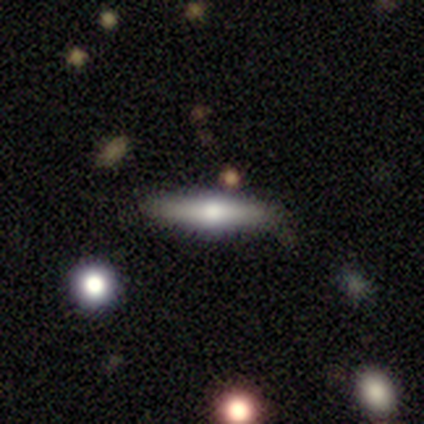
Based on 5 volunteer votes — A smooth galaxy with no disk features (100%) that is cigar-shaped (80%). Merging: none (80%).